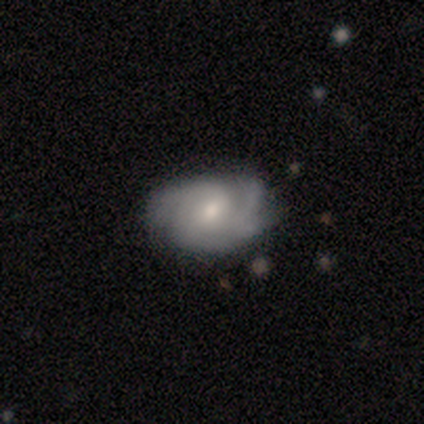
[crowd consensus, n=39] smooth_or_featured: featured or disk (p=0.85) [alt: smooth p=0.13]
disk_edge_on: no (p=0.97) [alt: yes p=0.03]
bar: no (p=0.59) [alt: weak p=0.38]
has_spiral_arms: yes (p=0.94) [alt: no p=0.06]
spiral_winding: tight (p=0.50) [alt: medium p=0.40]
spiral_arm_count: 2 (p=0.37) [alt: 3 p=0.33]
bulge_size: moderate (p=0.50) [alt: small p=0.34]
merging: none (p=0.68) [alt: minor disturbance p=0.24]